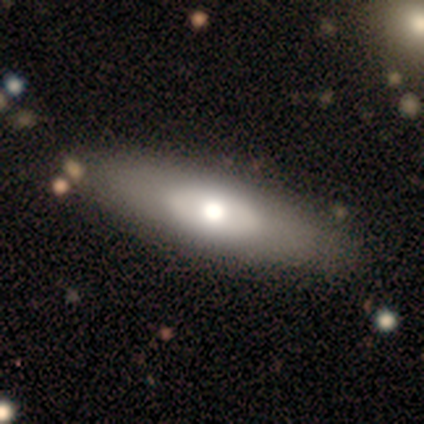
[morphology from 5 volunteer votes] Overall: smooth (80%). How rounded: in between (100%). Merging: none (100%).